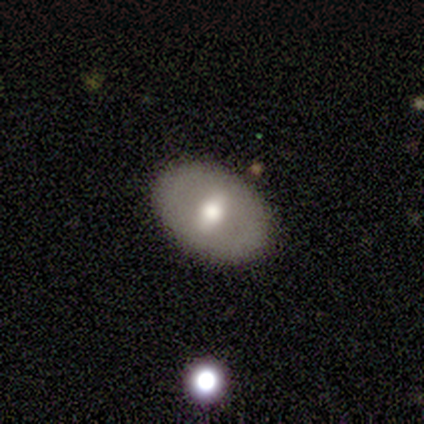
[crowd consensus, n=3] This appears to be a featured or disk galaxy (67%) viewed edge-on (50%, tied with no) with a rounded central bulge (100%). Merging: none (67%).